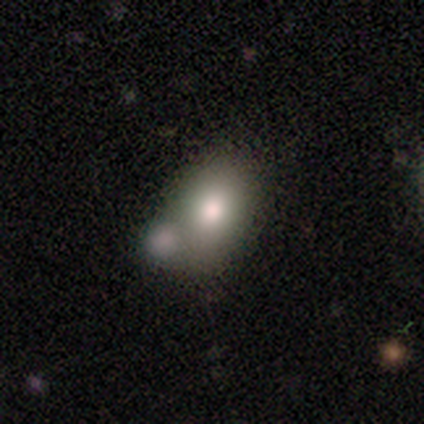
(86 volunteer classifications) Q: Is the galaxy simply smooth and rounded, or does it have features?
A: smooth — 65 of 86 (76%).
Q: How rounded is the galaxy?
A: in between — 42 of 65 (65%).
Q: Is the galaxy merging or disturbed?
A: none — 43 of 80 (54%).